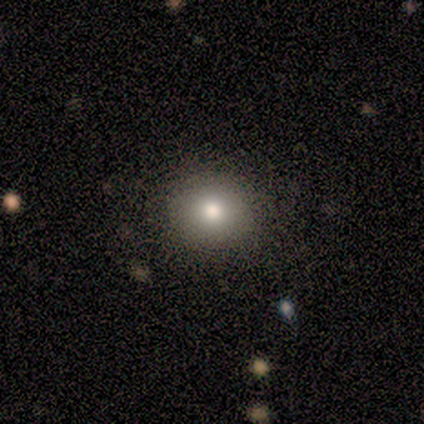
Overall: smooth (69%). How rounded: round (89%). Merging: none (100%).